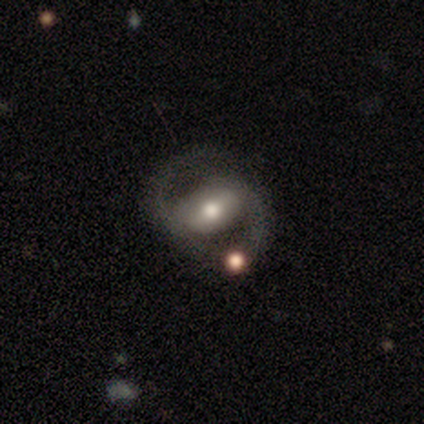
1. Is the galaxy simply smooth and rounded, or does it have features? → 100% featured or disk, 0% smooth, 0% star or artifact.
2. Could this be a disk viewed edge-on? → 67% no, 33% yes.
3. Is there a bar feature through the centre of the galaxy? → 50% weak, 25% strong, 25% no.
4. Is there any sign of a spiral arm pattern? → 75% yes, 25% no.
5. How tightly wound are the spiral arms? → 67% loose, 33% medium, 0% tight.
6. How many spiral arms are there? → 67% 2, 33% can't tell, 0% 1, 0% 3, 0% 4, 0% more than 4.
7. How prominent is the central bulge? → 50% moderate (tied), 50% small (tied), 0% dominant, 0% large, 0% none.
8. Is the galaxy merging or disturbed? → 67% none, 17% minor disturbance, 17% merger, 0% major disturbance.